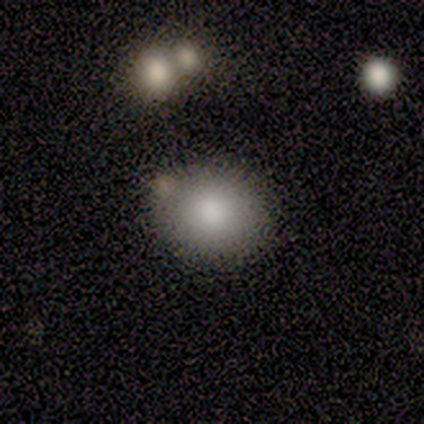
This is clearly a smooth galaxy (100%). How rounded: clearly round (100%). Merging: clearly none (80%).